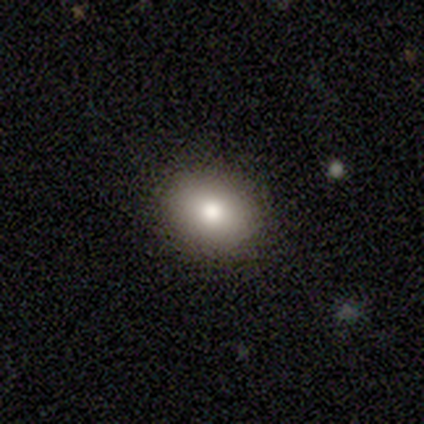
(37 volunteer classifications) smooth_or_featured: smooth (p=0.92) [alt: featured or disk p=0.05]
how_rounded: in between (p=0.71) [alt: round p=0.29]
merging: none (p=0.92) [alt: minor disturbance p=0.06]